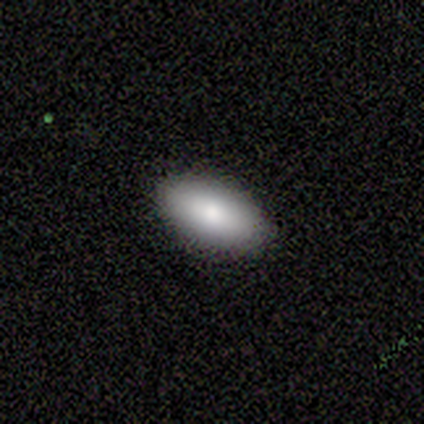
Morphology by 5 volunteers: A smooth galaxy with no disk features (60%) that is in between round and cigar-shaped (100%). Merging: none (100%).